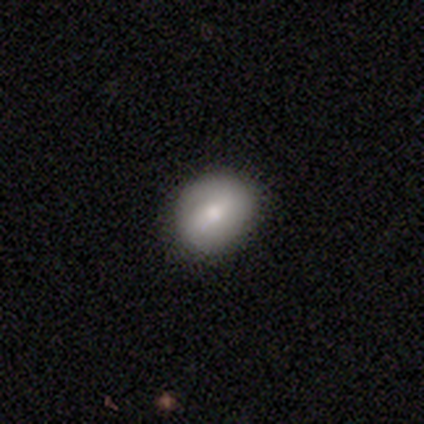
Smooth or featured?
  - smooth: 63% *
  - featured or disk: 33%
  - star or artifact: 4%
How rounded?
  - round: 62% *
  - in between: 38%
  - cigar-shaped: 0%
Merging?
  - none: 44% *
  - minor disturbance: 8%
  - major disturbance: 0%
  - merger: 0%